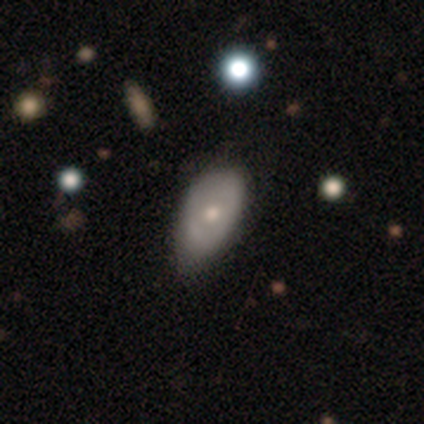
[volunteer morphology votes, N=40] Overall: smooth (52%; featured or disk 48%). How rounded: in between (100%). Merging: minor disturbance (48%; none 35%).